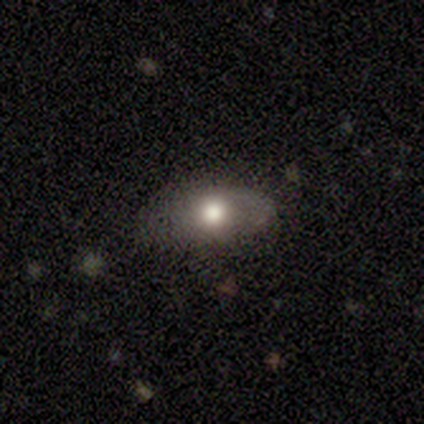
This is possibly a featured or disk galaxy (50%). It is clearly not viewed edge-on (100%). Bar: clearly no (100%). Spiral arm pattern: clearly no (100%). Central bulge: clearly moderate (100%). Merging: likely none (67%).